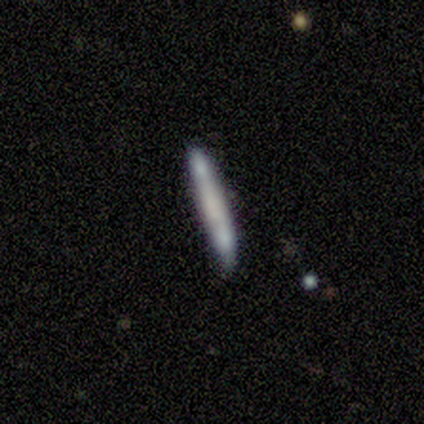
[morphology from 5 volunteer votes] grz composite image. It shows a smooth galaxy with no disk features (100%) that is cigar-shaped (100%). Merging: none (100%).